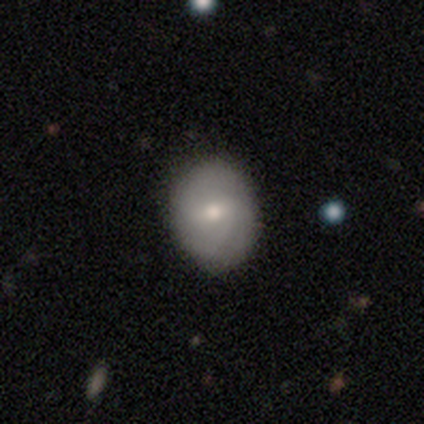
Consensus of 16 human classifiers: This appears to be a smooth galaxy with no disk features (62%) that is round (50%, tied with in between). Merging: none (79%).